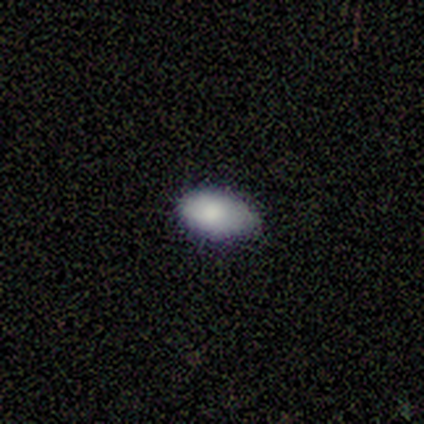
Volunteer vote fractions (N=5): A smooth galaxy with no disk features (100%) that is in between round and cigar-shaped (100%). Merging: none (40%, tied with minor disturbance).